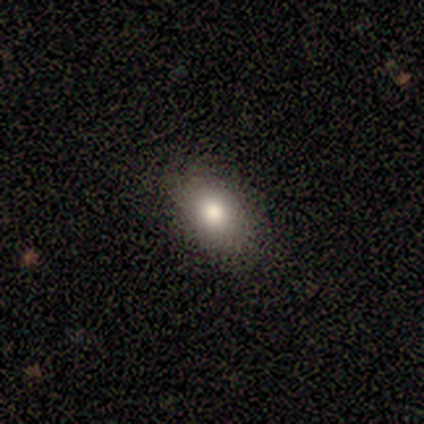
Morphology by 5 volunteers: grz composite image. It shows a smooth galaxy with no disk features (80%) that is round (50%, tied with in between). Merging: none (100%).